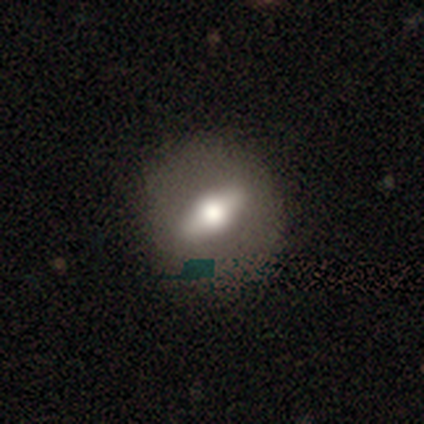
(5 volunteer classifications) This is clearly a featured or disk galaxy (80%). It is possibly viewed edge-on (50%, tied with no). Edge-on bulge: clearly rounded (100%). Merging: clearly none (100%).